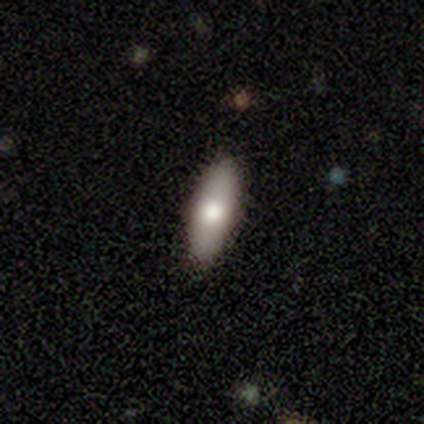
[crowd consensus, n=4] Volunteers were most divided on "how rounded": cigar-shaped: 75%, in between: 25%, round: 0%. More confident: smooth or featured — smooth (100%); merging — none (75%).